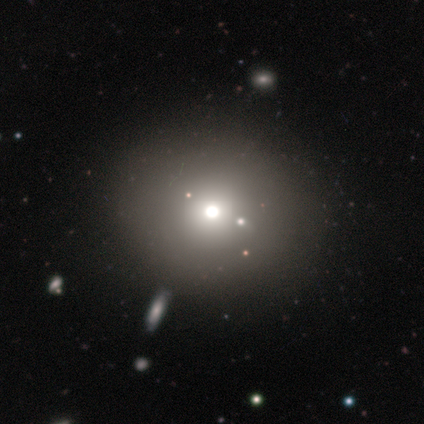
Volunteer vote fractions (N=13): Smooth or featured? 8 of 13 (62%) said smooth. How rounded? 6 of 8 (75%) said round. Merging? 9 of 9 (100%) said none.